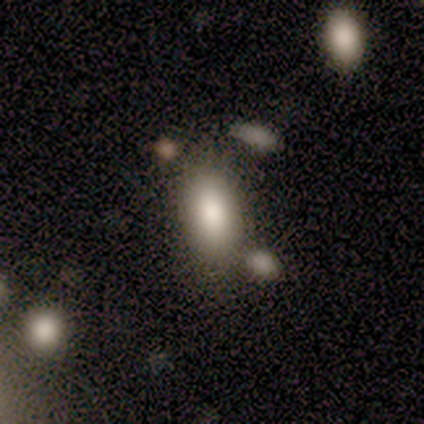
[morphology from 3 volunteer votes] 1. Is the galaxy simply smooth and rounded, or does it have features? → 100% smooth, 0% featured or disk, 0% star or artifact.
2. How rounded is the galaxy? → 100% in between, 0% round, 0% cigar-shaped.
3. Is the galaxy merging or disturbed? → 100% none, 0% minor disturbance, 0% major disturbance, 0% merger.